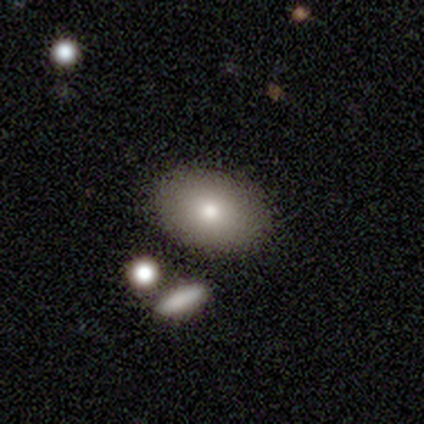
Smooth or featured? smooth (67%)
How rounded? in between (100%)
Merging? none (100%)